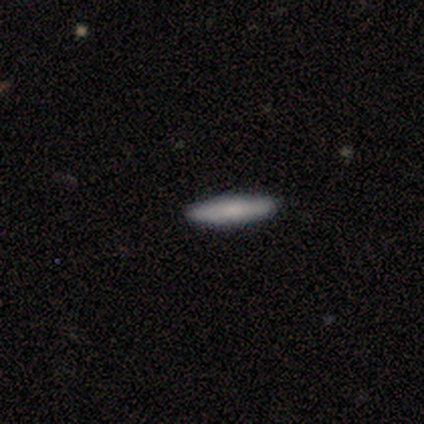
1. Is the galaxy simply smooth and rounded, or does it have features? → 74% smooth, 24% featured or disk, 2% star or artifact.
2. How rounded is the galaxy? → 84% cigar-shaped, 13% in between, 3% round.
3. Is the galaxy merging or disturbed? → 98% none, 2% minor disturbance, 0% major disturbance, 0% merger.